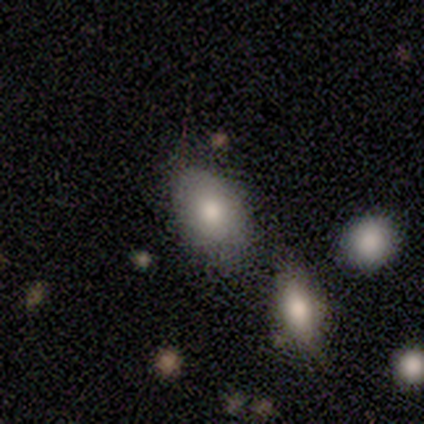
This appears to be a smooth galaxy with no disk features (75%) that is in between round and cigar-shaped (100%). Merging: none (75%).